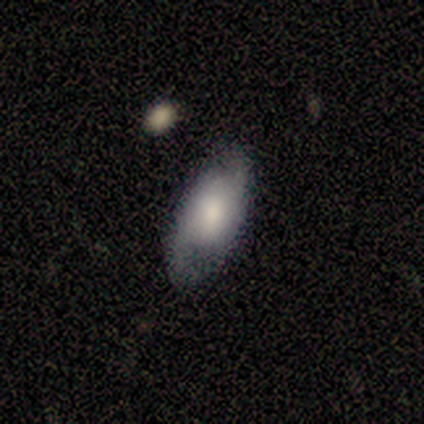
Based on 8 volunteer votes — Smooth or featured: smooth — 62% (featured or disk — 38%)
How rounded: in between — 100%
Merging: none — 88% (minor disturbance — 12%)